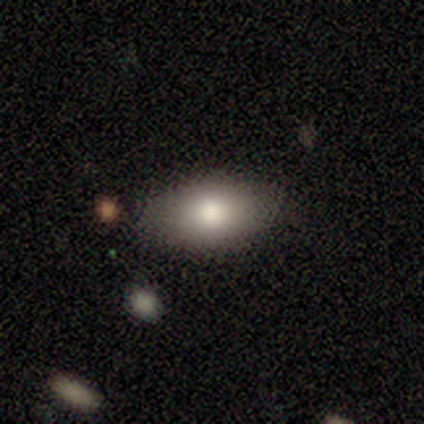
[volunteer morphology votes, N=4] type=smooth (100%); roundness=in between (75%); merging=none (75%).